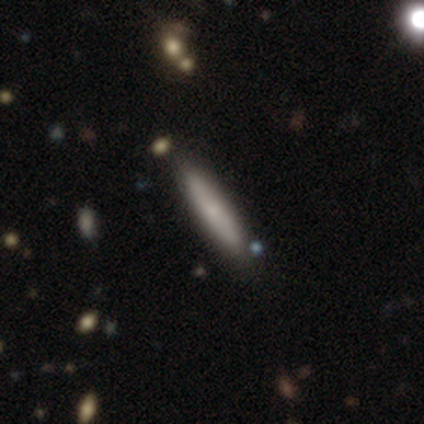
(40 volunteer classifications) This is likely a smooth galaxy (75%). How rounded: clearly cigar-shaped (87%). Merging: clearly none (80%).